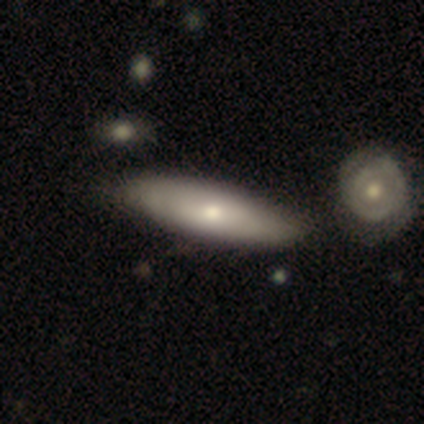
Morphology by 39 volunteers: Smooth or featured?
  - smooth: 62% *
  - featured or disk: 36%
  - star or artifact: 3%
How rounded?
  - in between: 58% *
  - cigar-shaped: 42%
  - round: 0%
Merging?
  - none: 53% *
  - minor disturbance: 8%
  - merger: 5%
  - major disturbance: 3%